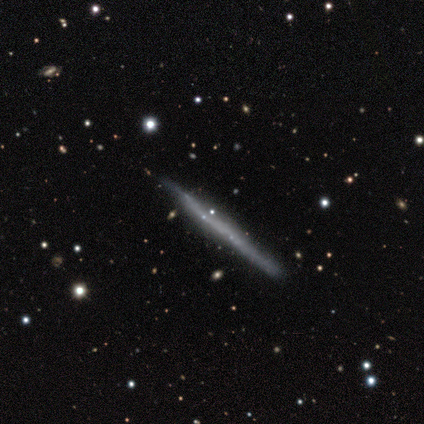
Q: Smooth or featured?
A: featured or disk (73%); runner-up: smooth (20%)
Q: Edge-on disk?
A: yes (100%)
Q: Edge-on bulge?
A: none (90%); runner-up: boxy (7%)
Q: Merging?
A: none (87%); runner-up: minor disturbance (11%)